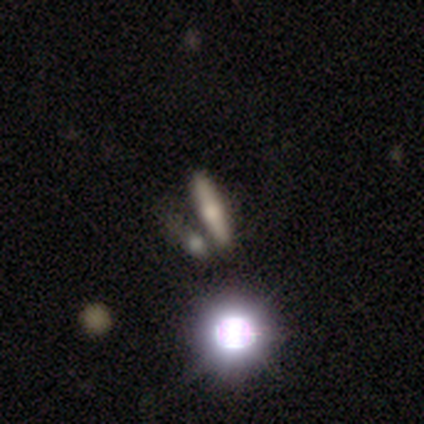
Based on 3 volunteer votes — Smooth or featured? smooth (67%)
How rounded? cigar-shaped (100%)
Merging? none (100%)